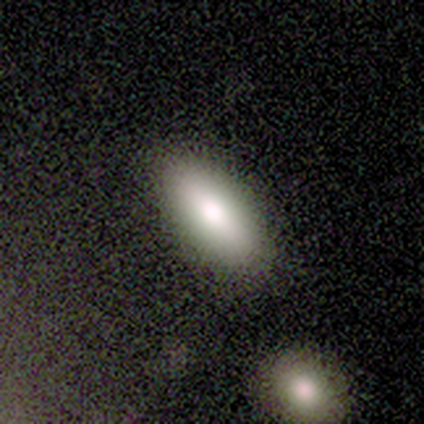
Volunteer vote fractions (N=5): Morphology: type=smooth (100%); roundness=in between (80%); merging=none (100%).